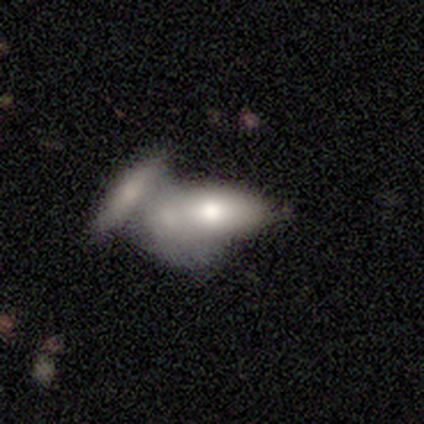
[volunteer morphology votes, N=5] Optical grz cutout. It shows a smooth galaxy with no disk features (80%) that is in between round and cigar-shaped (75%). Merging: merger (75%).